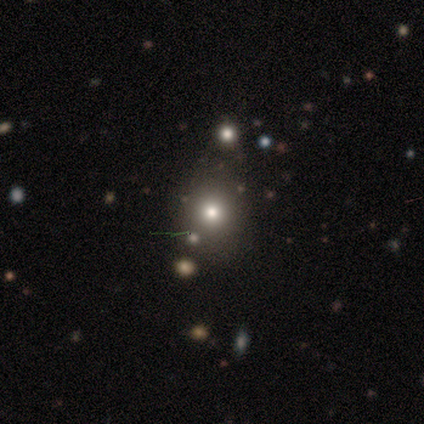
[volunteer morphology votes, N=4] smooth 100%, featured or disk 0%, star or artifact 0%. Down the decision tree: how rounded — round (100%); merging — none (100%).